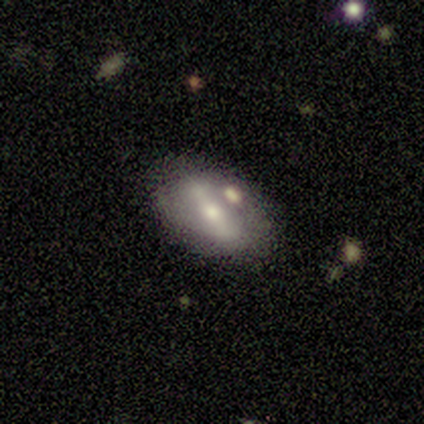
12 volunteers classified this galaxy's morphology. This is likely a featured or disk galaxy (75%). It is clearly not viewed edge-on (100%). Bar: clearly strong (89%). Spiral arm pattern: possibly no (56%). Central bulge: possibly small (56%). Merging: likely none (75%).